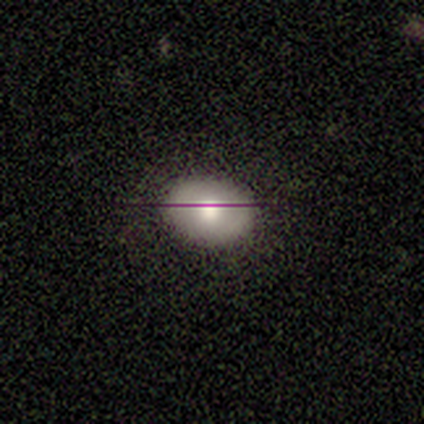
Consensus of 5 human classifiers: This appears to be a smooth galaxy with no disk features (100%) that is in between round and cigar-shaped (60%). Merging: none (80%).